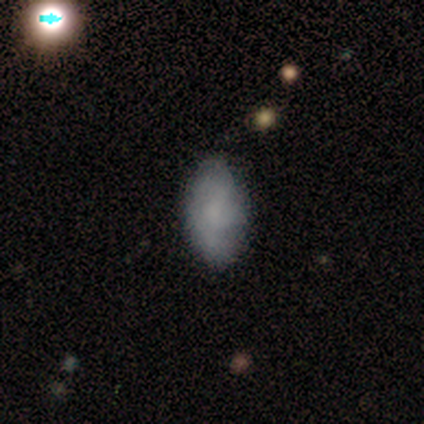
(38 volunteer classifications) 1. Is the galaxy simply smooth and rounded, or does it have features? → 61% smooth, 29% featured or disk, 11% star or artifact.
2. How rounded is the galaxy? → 87% in between, 9% cigar-shaped, 4% round.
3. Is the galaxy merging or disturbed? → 68% none, 26% minor disturbance, 6% major disturbance, 0% merger.